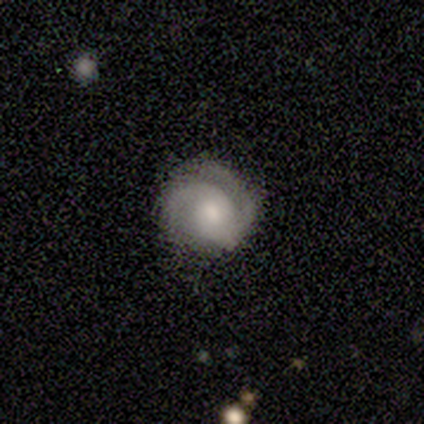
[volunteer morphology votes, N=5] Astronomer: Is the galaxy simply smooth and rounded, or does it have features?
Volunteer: featured or disk — 80%.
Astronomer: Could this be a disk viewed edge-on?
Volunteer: no — 100%.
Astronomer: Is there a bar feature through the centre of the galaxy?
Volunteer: weak — 50%, tied with no at 50%.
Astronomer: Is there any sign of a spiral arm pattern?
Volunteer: yes — 100%.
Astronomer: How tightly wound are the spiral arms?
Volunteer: medium — 50%.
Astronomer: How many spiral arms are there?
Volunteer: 2 — 75%.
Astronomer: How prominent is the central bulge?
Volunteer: moderate — 50%, tied with small at 50%.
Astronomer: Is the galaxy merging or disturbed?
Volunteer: none — 60%.